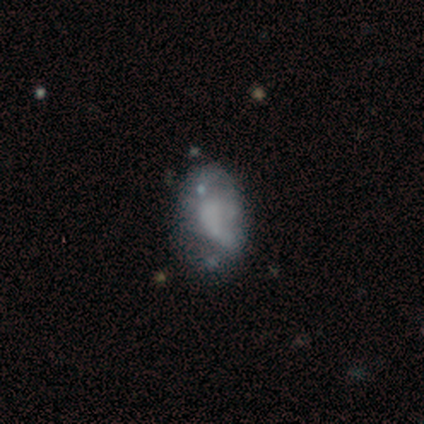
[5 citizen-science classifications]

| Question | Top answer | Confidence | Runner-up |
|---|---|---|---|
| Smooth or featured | featured or disk | 60% | smooth (20%) |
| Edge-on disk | no | 100% | — |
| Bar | no | 100% | — |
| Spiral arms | no | 67% | yes (33%) |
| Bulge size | none | 100% | — |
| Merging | minor disturbance | 75% | major disturbance (25%) |